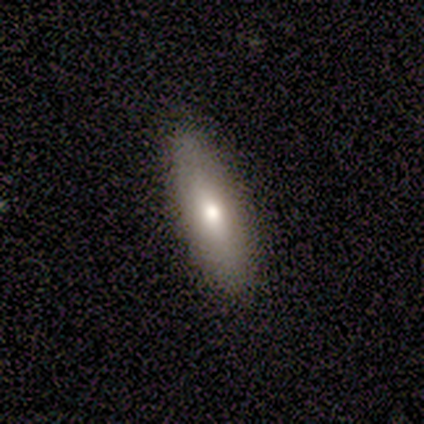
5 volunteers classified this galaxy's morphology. Smooth or featured?
  - smooth: 60% *
  - star or artifact: 40%
  - featured or disk: 0%
How rounded?
  - cigar-shaped: 67% *
  - in between: 33%
  - round: 0%
Merging?
  - none: 100% *
  - minor disturbance: 0%
  - major disturbance: 0%
  - merger: 0%